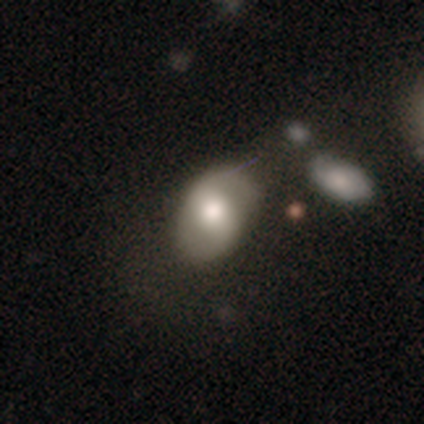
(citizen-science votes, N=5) A featured or disk galaxy (60%) with a strong bar (33%, tied with weak and no), 2 (100%) loose (100%) spiral arms (67%) and a moderate central bulge (100%). Merging: minor disturbance (40%).